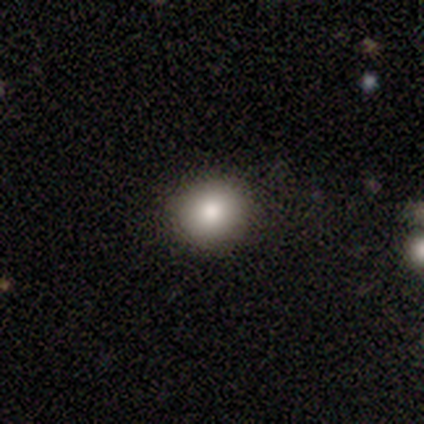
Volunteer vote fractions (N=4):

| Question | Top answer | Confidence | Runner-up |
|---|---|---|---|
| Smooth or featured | smooth | 75% | featured or disk (25%) |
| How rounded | round | 100% | — |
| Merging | none | 75% | minor disturbance (25%) |